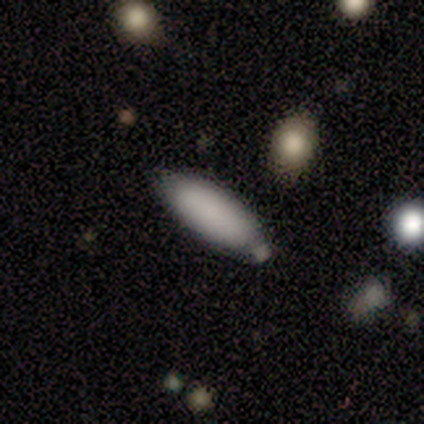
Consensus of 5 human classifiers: Smooth or featured?
  - smooth: 100% *
  - featured or disk: 0%
  - star or artifact: 0%
How rounded?
  - in between: 80% *
  - cigar-shaped: 20%
  - round: 0%
Merging?
  - none: 60% *
  - minor disturbance: 40%
  - major disturbance: 0%
  - merger: 0%